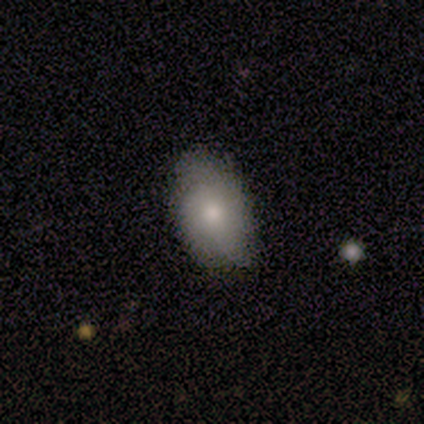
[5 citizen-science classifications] smooth 60%, featured or disk 20%, star or artifact 20%. Down the decision tree: how rounded — in between (67%); merging — none (50%).